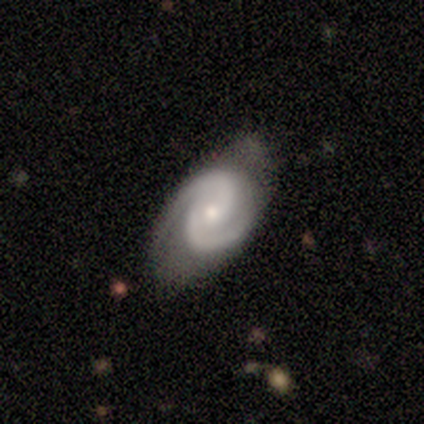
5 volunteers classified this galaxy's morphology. Smooth or featured?
  - featured or disk: 80% *
  - smooth: 20%
  - star or artifact: 0%
Edge-on disk?
  - no: 100% *
  - yes: 0%
Bar?
  - no: 75% *
  - weak: 25%
  - strong: 0%
Spiral arms?
  - yes: 100% *
  - no: 0%
Spiral winding?
  - tight: 50% * (tied)
  - medium: 50% * (tied)
  - loose: 0%
Spiral arm count?
  - 2: 100% *
  - 1: 0%
  - 3: 0%
  - 4: 0%
  - more than 4: 0%
  - can't tell: 0%
Bulge size?
  - small: 100% *
  - dominant: 0%
  - large: 0%
  - moderate: 0%
  - none: 0%
Merging?
  - none: 60% *
  - minor disturbance: 40%
  - major disturbance: 0%
  - merger: 0%